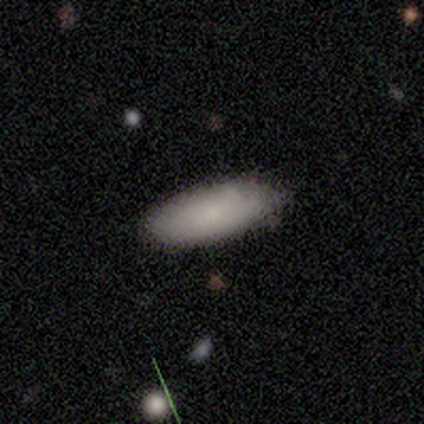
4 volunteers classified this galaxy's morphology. Volunteers were most divided on "how rounded" (2-way tie): in between: 50%, cigar-shaped: 50%, round: 0%. More confident: smooth or featured — smooth (100%); merging — none (75%).